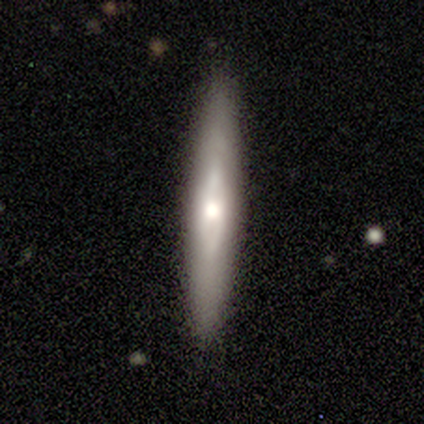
A featured or disk galaxy (48%) viewed edge-on (74%) with a rounded central bulge (71%).

Vote fractions:
- Smooth or featured? featured or disk: 48% / smooth: 42% / star or artifact: 10%
- Edge-on disk? yes: 74% / no: 26%
- Edge-on bulge? rounded: 71% / boxy: 14% / none: 14%
- Merging? none: 81% / minor disturbance: 14% / major disturbance: 6% / merger: 0%